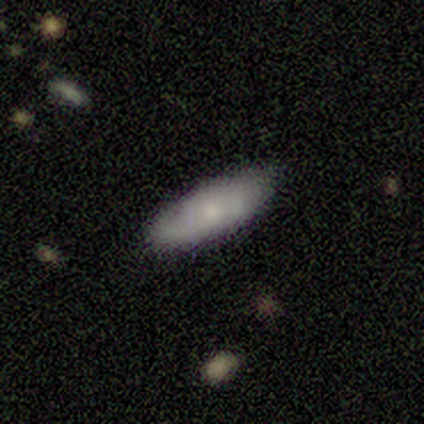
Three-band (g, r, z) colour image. It shows a smooth galaxy with no disk features (50%) that is in between round and cigar-shaped (61%). Merging: none (79%).